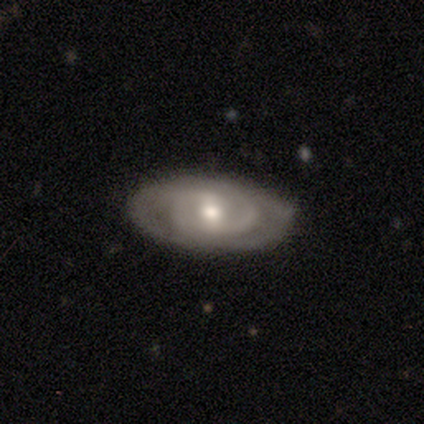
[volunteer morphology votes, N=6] A featured or disk galaxy (100%) with a weak bar (50%, tied with no), 2 (100%) tight (60%) spiral arms (83%) and a moderate central bulge (50%, tied with small).

Vote fractions:
- Smooth or featured? featured or disk: 100% / smooth: 0% / star or artifact: 0%
- Edge-on disk? no: 100% / yes: 0%
- Bar? weak: 50% (tied) / no: 50% (tied) / strong: 0%
- Spiral arms? yes: 83% / no: 17%
- Spiral winding? tight: 60% / medium: 40% / loose: 0%
- Spiral arm count? 2: 100% / 1: 0% / 3: 0% / 4: 0% / more than 4: 0% / can't tell: 0%
- Bulge size? moderate: 50% (tied) / small: 50% (tied) / dominant: 0% / large: 0% / none: 0%
- Merging? none: 83% / minor disturbance: 17% / major disturbance: 0% / merger: 0%